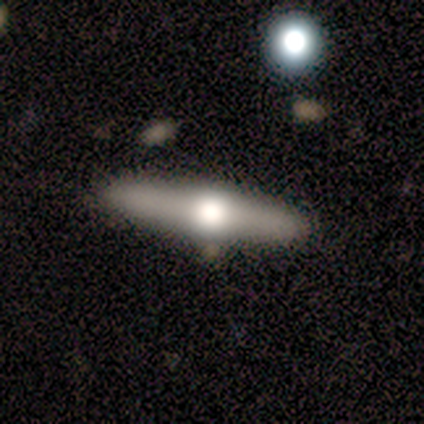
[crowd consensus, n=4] This appears to be a featured or disk galaxy (75%) viewed edge-on (100%) with a rounded central bulge (100%). Merging: none (100%).